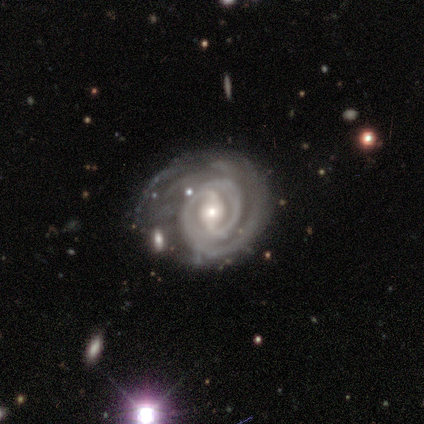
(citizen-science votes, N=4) Overall: featured or disk (100%). Edge-on disk: no (100%). Bar: strong (50%; weak 25%). Spiral arms: yes (100%). Spiral arm count: 2 (75%). Spiral winding: tight (100%). Bulge size: moderate (75%). Merging: major disturbance (50%; none 25%).